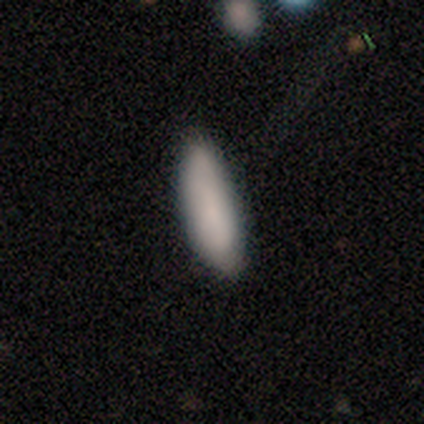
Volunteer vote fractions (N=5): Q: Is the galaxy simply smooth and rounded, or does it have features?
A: smooth — 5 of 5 (100%).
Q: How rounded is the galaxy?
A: in between — 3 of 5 (60%).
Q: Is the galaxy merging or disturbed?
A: none — 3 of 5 (60%).